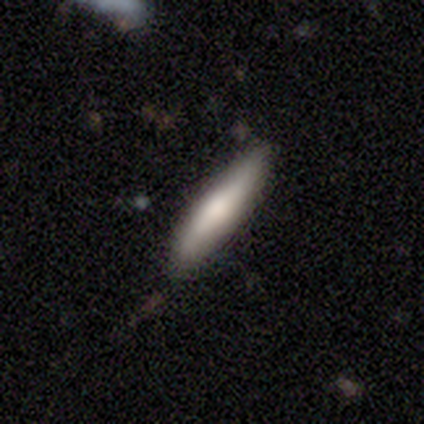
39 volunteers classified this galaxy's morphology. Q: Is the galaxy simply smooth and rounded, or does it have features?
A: smooth — 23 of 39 (59%).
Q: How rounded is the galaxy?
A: cigar-shaped — 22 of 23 (96%).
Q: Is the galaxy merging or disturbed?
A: none — 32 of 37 (86%).